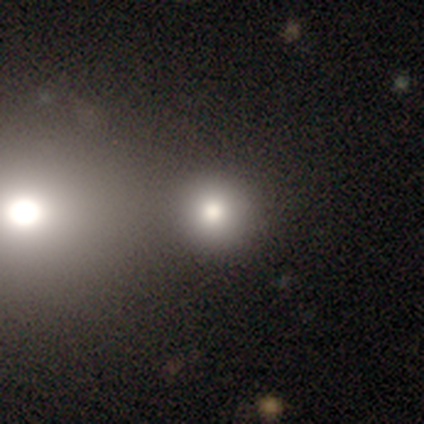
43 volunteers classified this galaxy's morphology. Smooth or featured? 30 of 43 (70%) said smooth. How rounded? 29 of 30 (97%) said round. Merging? 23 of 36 (64%) said none.